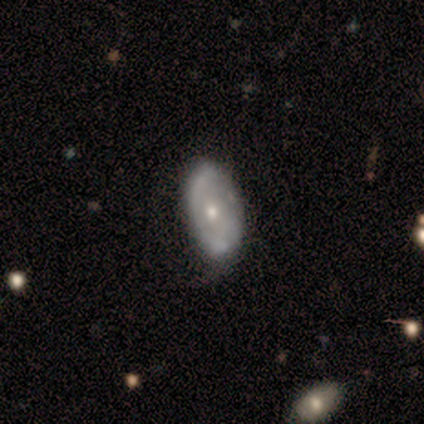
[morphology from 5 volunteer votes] A featured or disk galaxy (80%) with a weak bar (67%), no spiral arms (67%) and a moderate central bulge (67%). Merging: none (80%).